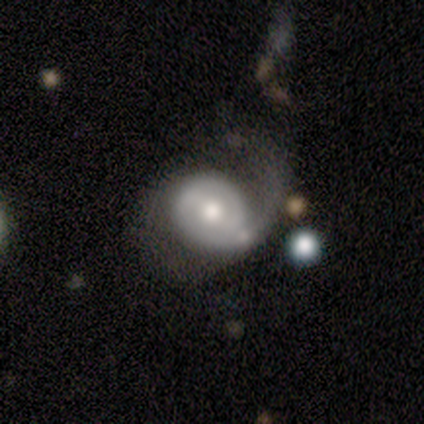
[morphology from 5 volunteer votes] Q: Smooth or featured?
A: featured or disk (80%); runner-up: smooth (20%)
Q: Edge-on disk?
A: no (100%)
Q: Bar?
A: strong (50%); tied with: no (50%)
Q: Spiral arms?
A: yes (100%)
Q: Spiral winding?
A: loose (50%); runner-up: tight (25%)
Q: Spiral arm count?
A: 1 (50%); runner-up: 2 (25%)
Q: Bulge size?
A: moderate (75%); runner-up: large (25%)
Q: Merging?
A: major disturbance (60%); runner-up: none (40%)